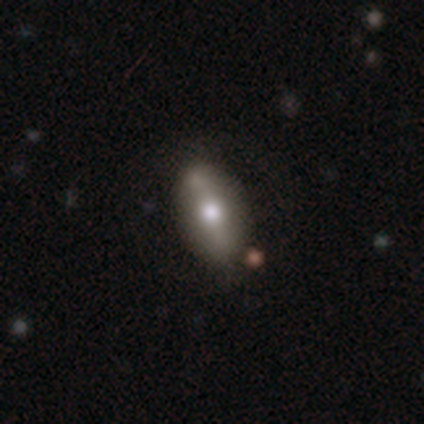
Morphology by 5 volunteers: Smooth or featured: featured or disk — 60% (smooth — 20%)
Edge-on disk: yes — 100%
Edge-on bulge: rounded — 100%
Merging: none — 50% (tied with minor disturbance — 50%)